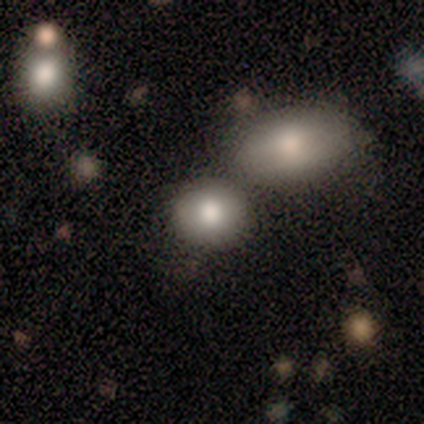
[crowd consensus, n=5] A smooth galaxy with no disk features (80%) that is round (50%, tied with in between). Merging: none (75%).